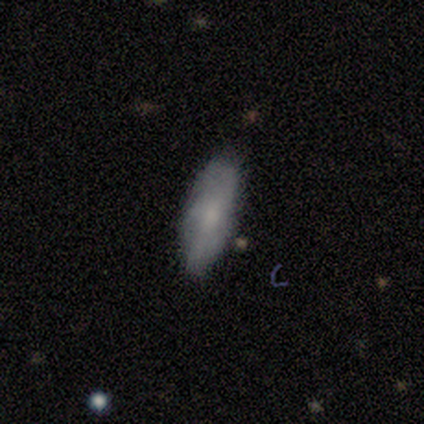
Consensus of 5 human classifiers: Smooth or featured? 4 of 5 (80%) said smooth. How rounded? 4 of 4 (100%) said in between. Merging? 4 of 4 (100%) said none.